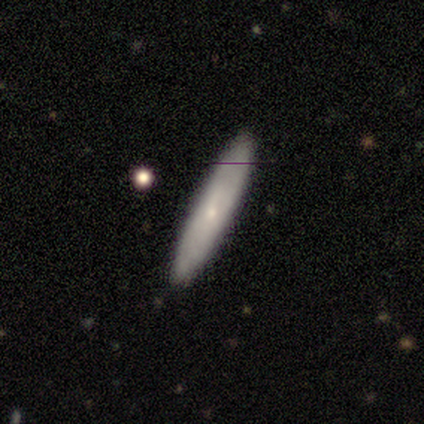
A smooth galaxy with no disk features (100%) that is cigar-shaped (80%).

Vote fractions:
- Smooth or featured? smooth: 100% / featured or disk: 0% / star or artifact: 0%
- How rounded? cigar-shaped: 80% / in between: 20% / round: 0%
- Merging? none: 100% / minor disturbance: 0% / major disturbance: 0% / merger: 0%